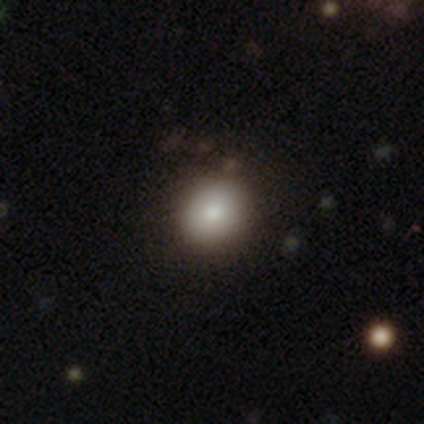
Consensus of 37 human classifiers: Q: Smooth or featured?
A: smooth (78%); runner-up: featured or disk (14%)
Q: How rounded?
A: round (90%); runner-up: in between (10%)
Q: Merging?
A: none (85%); runner-up: minor disturbance (9%)